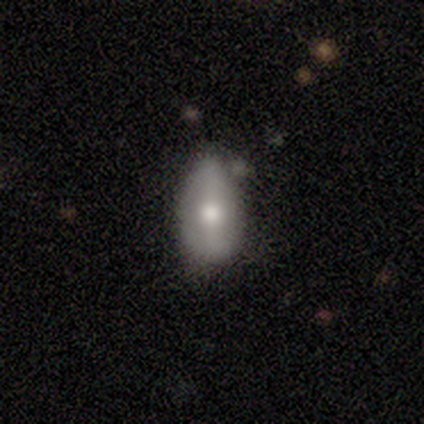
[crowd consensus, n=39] A featured or disk galaxy (49%) with no bar (44%), no spiral arms (67%) and a moderate central bulge (72%).

Vote fractions:
- Smooth or featured? featured or disk: 49% / smooth: 41% / star or artifact: 10%
- Edge-on disk? no: 95% / yes: 5%
- Bar? no: 44% / strong: 28% / weak: 28%
- Spiral arms? no: 67% / yes: 33%
- Bulge size? moderate: 72% / large: 17% / small: 11% / dominant: 0% / none: 0%
- Merging? minor disturbance: 46% / none: 40% / merger: 9% / major disturbance: 6%